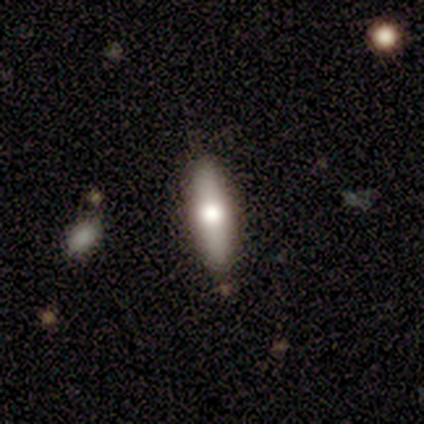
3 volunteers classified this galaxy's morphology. A smooth galaxy with no disk features (100%) that is cigar-shaped (67%). Merging: none (100%).